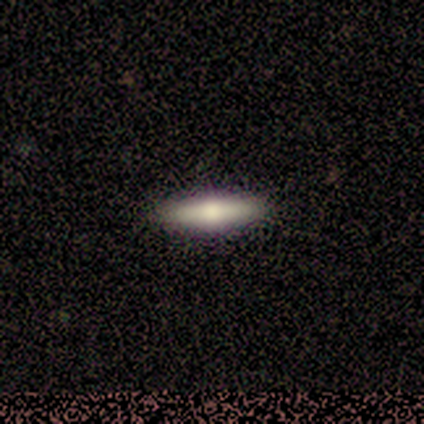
featured or disk 60%, smooth 40%, star or artifact 0%. Down the decision tree: edge-on disk — yes (100%); edge-on bulge — rounded (100%); merging — none (60%).